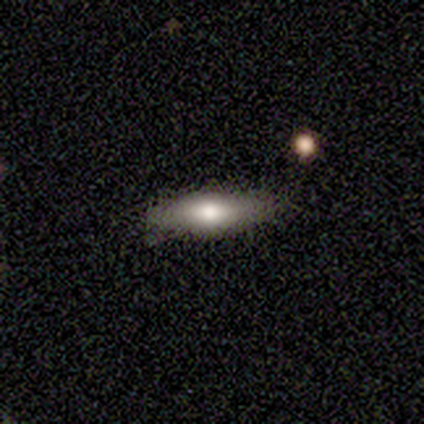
Overall: smooth (75%). How rounded: cigar-shaped (67%; in between 33%). Merging: none (50%, tied with minor disturbance).